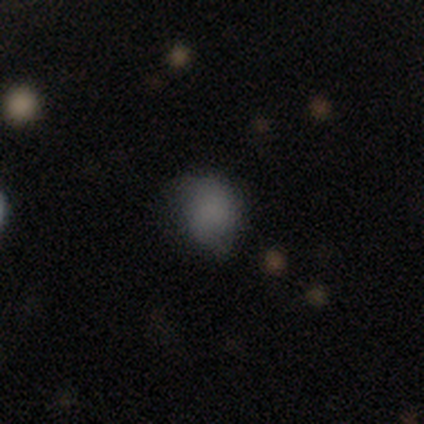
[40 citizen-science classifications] Smooth or featured: smooth — 80% (featured or disk — 10%)
How rounded: round — 66% (in between — 34%)
Merging: none — 72% (minor disturbance — 17%)